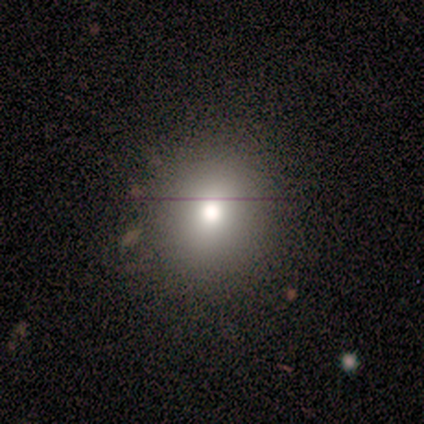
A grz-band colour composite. It shows a smooth galaxy with no disk features (60%) that is round (100%). Merging: none (100%).